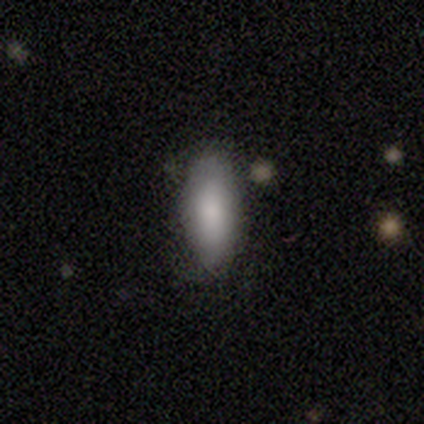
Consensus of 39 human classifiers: This is clearly a smooth galaxy (90%). How rounded: clearly in between (86%). Merging: possibly none (59%).